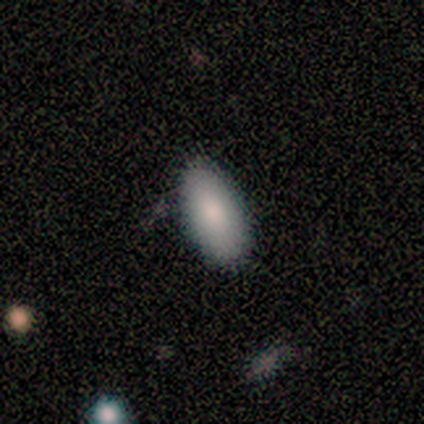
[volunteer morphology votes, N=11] Overall: smooth (100%). How rounded: in between (100%). Merging: none (91%).